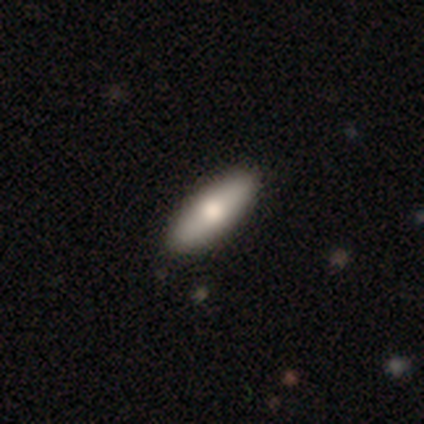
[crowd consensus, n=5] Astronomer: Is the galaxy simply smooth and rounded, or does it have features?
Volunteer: smooth — 80%.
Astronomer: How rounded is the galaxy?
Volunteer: in between — 75%.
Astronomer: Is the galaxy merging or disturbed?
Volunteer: none — 100%.